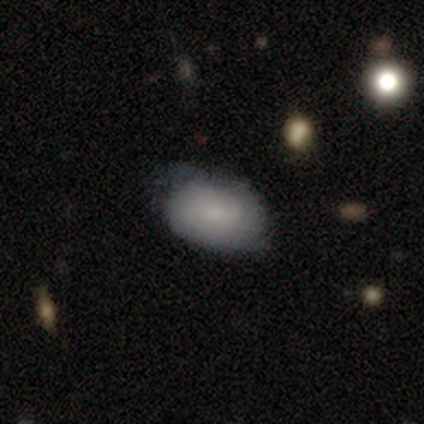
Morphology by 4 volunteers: This appears to be a smooth galaxy with no disk features (50%) that is in between round and cigar-shaped (100%). Merging: none (67%).